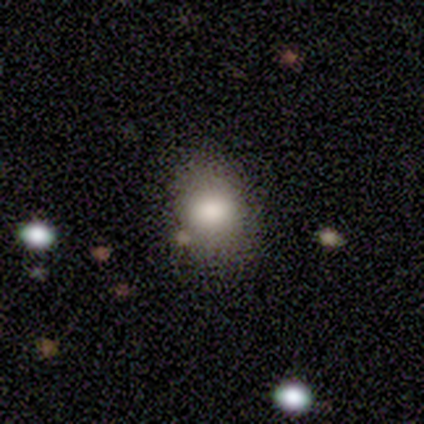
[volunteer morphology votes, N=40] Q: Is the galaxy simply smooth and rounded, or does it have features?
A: smooth — 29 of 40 (72%).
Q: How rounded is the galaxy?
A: in between — 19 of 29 (66%).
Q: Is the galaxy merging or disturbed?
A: none — 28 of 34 (82%).